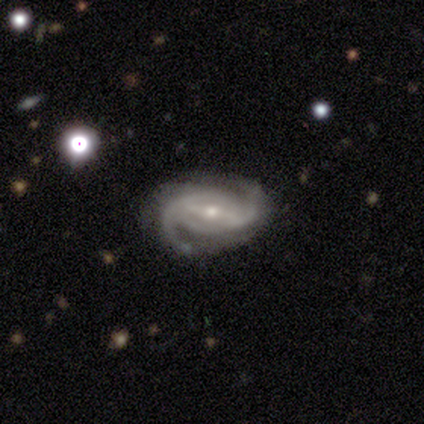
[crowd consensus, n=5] A featured or disk galaxy (100%) with a weak bar (80%), 2 (80%) medium (80%) spiral arms (100%) and a moderate central bulge (60%). Merging: none (80%).